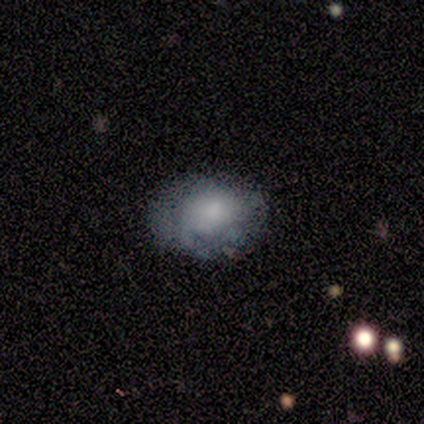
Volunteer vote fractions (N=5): smooth_or_featured: smooth (p=0.80) [alt: featured or disk p=0.20]
how_rounded: in between (p=0.75) [alt: round p=0.25]
merging: none (p=0.80) [alt: major disturbance p=0.20]